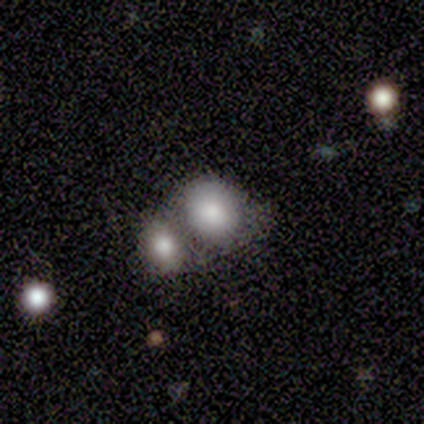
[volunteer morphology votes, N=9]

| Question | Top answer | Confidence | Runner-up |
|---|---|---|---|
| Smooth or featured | smooth | 89% | star or artifact (11%) |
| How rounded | in between | 75% | round (25%) |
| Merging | merger | 88% | major disturbance (12%) |